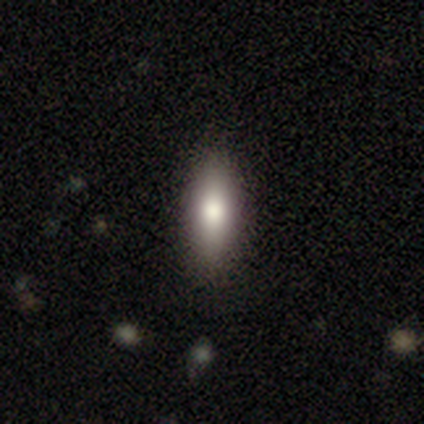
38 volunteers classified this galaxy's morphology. Smooth or featured?
  - smooth: 82% *
  - featured or disk: 13%
  - star or artifact: 5%
How rounded?
  - in between: 68% *
  - cigar-shaped: 32%
  - round: 0%
Merging?
  - none: 92% *
  - minor disturbance: 8%
  - major disturbance: 0%
  - merger: 0%